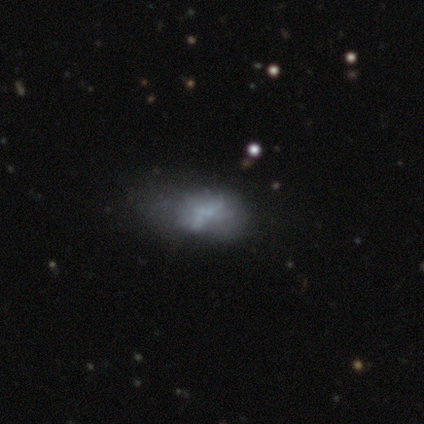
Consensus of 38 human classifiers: This appears to be a featured or disk galaxy (63%) with no bar (88%), no spiral arms (96%) and no central bulge (83%). Merging: major disturbance (32%).